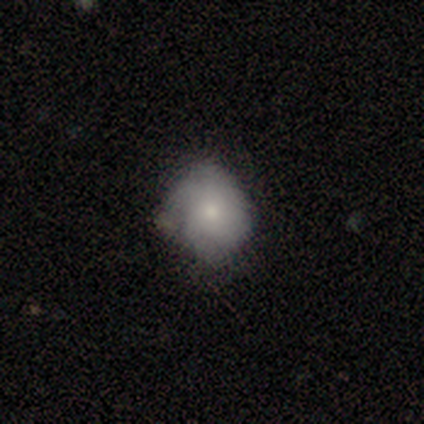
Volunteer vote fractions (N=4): smooth_or_featured: smooth (p=1.00)
how_rounded: round (p=0.75) [alt: in between p=0.25]
merging: none (p=0.50) [alt: minor disturbance p=0.25]